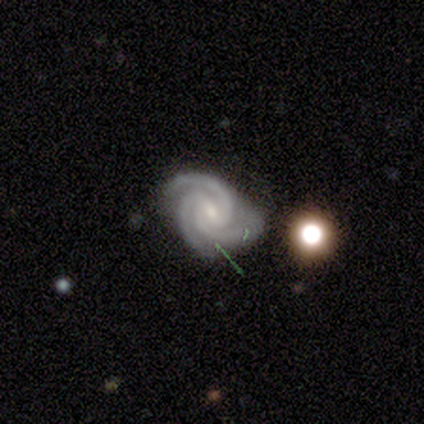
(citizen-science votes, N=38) smooth-or-featured: featured or disk: 95% | star or artifact: 5% | smooth: 0%
  disk-edge-on: no: 100% | yes: 0%
    bar: weak: 50% | no: 31% | strong: 19%
    has-spiral-arms: yes: 100% | no: 0%
      spiral-winding: tight: 64% | medium: 33% | loose: 3%
      spiral-arm-count: 3: 100% | 1: 0% | 2: 0% | 4: 0% | more than 4: 0% | can't tell: 0%
    bulge-size: small: 69% | moderate: 28% | none: 3% | dominant: 0% | large: 0%
  merging: none: 69% | minor disturbance: 19% | major disturbance: 8% | merger: 3%